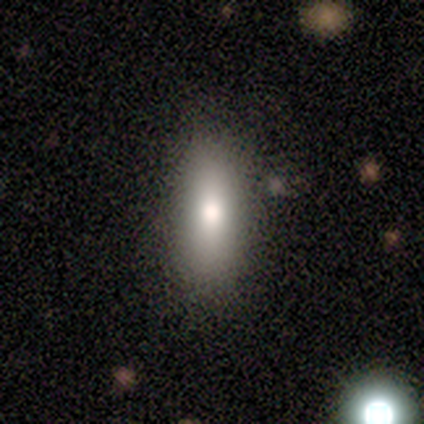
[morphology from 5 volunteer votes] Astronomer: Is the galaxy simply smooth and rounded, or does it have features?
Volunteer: smooth — 100%.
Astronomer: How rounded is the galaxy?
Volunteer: in between — 100%.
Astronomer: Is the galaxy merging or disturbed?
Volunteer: none — 80%.